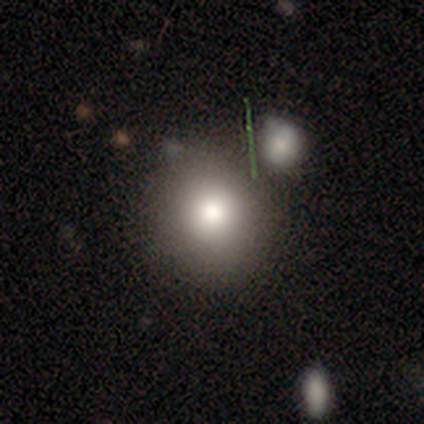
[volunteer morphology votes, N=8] A smooth galaxy with no disk features (75%) that is round (100%). Merging: none (86%).